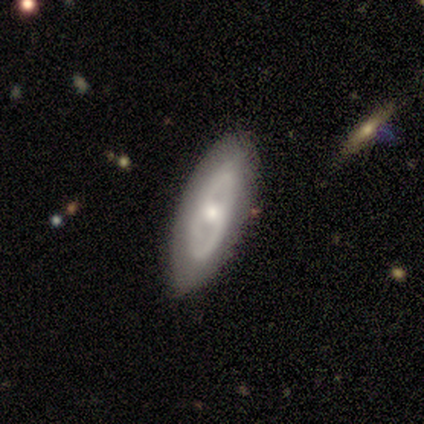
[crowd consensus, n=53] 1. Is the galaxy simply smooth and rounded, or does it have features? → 77% featured or disk, 21% smooth, 2% star or artifact.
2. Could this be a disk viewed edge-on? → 93% no, 7% yes.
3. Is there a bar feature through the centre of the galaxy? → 71% no, 21% weak, 8% strong.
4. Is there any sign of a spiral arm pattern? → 82% no, 18% yes.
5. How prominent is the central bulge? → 68% moderate, 21% small, 8% large, 3% none, 0% dominant.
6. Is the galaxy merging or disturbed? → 81% none, 17% minor disturbance, 2% merger, 0% major disturbance.